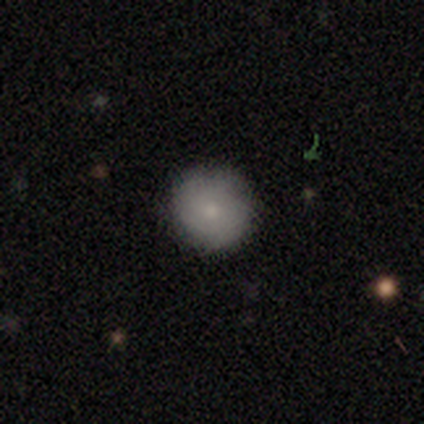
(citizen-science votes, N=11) Smooth or featured: smooth — 82% (featured or disk — 18%)
How rounded: round — 100%
Merging: none — 100%